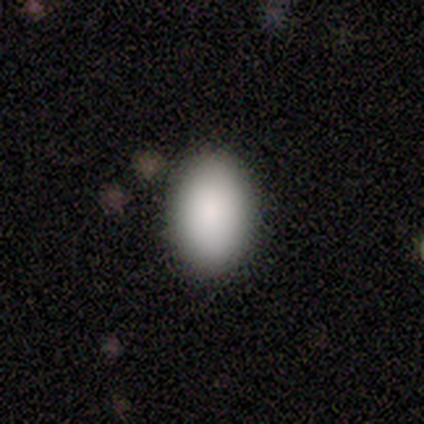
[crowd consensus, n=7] Smooth or featured? smooth (86%)
How rounded? in between (67%)
Merging? none (86%)